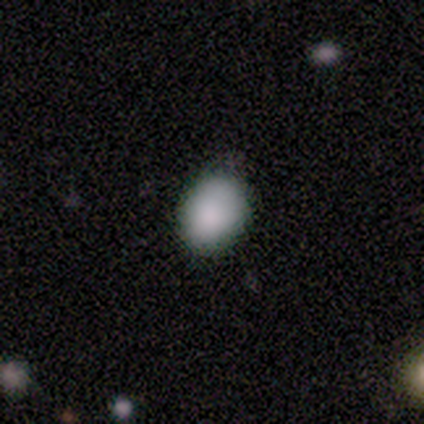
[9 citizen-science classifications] This appears to be a star or artifact, not a galaxy (56%).